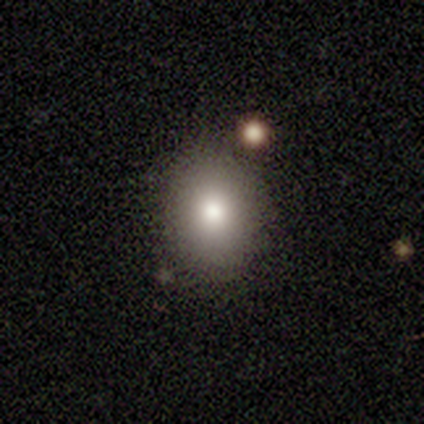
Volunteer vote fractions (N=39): Q: Smooth or featured?
A: smooth (64%); runner-up: featured or disk (18%)
Q: How rounded?
A: round (56%); runner-up: in between (44%)
Q: Merging?
A: none (75%); runner-up: minor disturbance (12%)